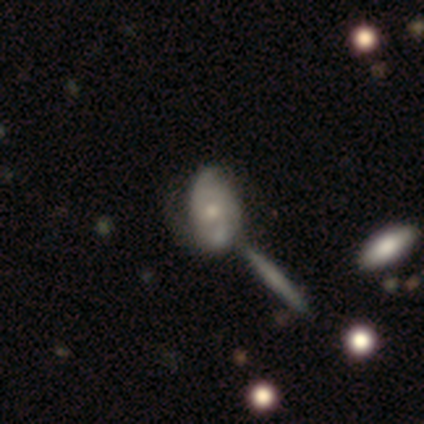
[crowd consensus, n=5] Morphology: type=smooth (80%); roundness=in between (100%); merging=minor disturbance (40%).